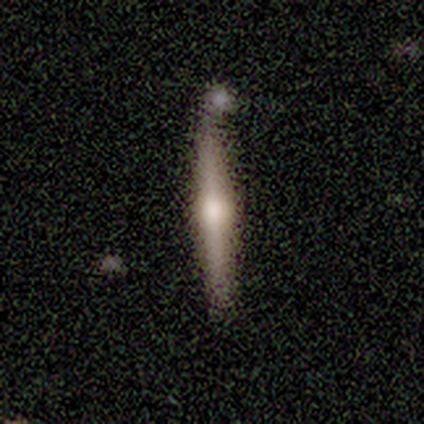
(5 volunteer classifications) This is likely a featured or disk galaxy (60%). It is clearly viewed edge-on (100%). Edge-on bulge: clearly rounded (100%). Merging: clearly none (80%).